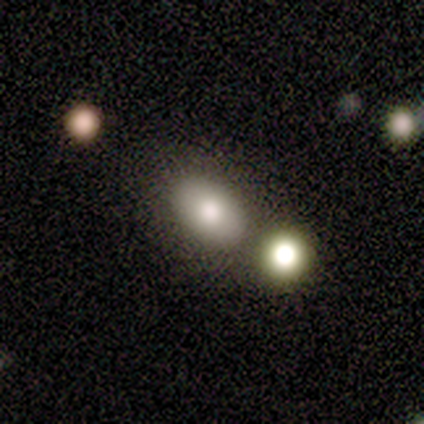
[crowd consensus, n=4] Smooth or featured?
  - smooth: 100% *
  - featured or disk: 0%
  - star or artifact: 0%
How rounded?
  - in between: 100% *
  - round: 0%
  - cigar-shaped: 0%
Merging?
  - none: 50% *
  - minor disturbance: 25%
  - merger: 25%
  - major disturbance: 0%